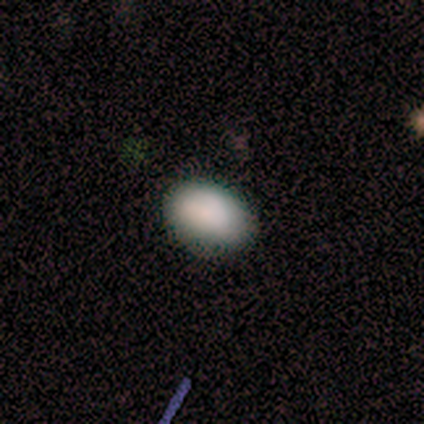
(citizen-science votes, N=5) Smooth or featured? smooth (60%)
How rounded? in between (67%)
Merging? none (100%)